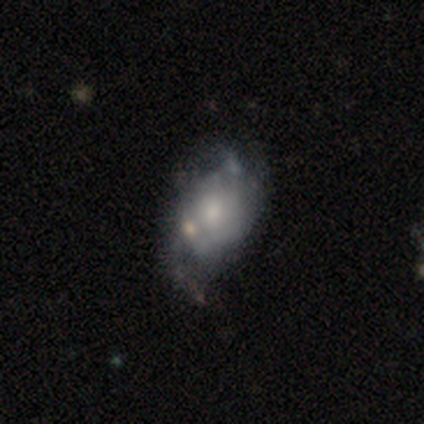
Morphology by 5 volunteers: Smooth or featured? featured or disk (60%)
Edge-on disk? no (100%)
Bar? no (100%)
Spiral arms? yes (67%)
Spiral winding? medium (50%, tied with loose)
Spiral arm count? 2 (50%, tied with can't tell)
Bulge size? moderate (67%)
Merging? minor disturbance (67%)